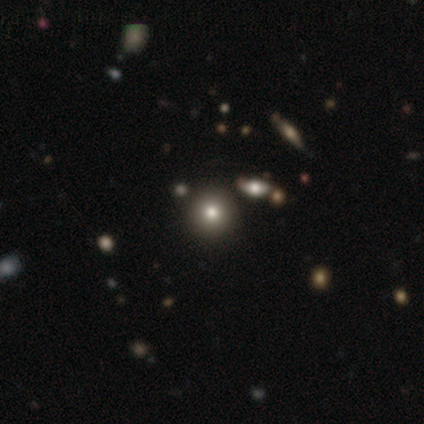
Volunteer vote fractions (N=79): smooth 72%, star or artifact 19%, featured or disk 9%. Down the decision tree: how rounded — round (98%); merging — none (47%).